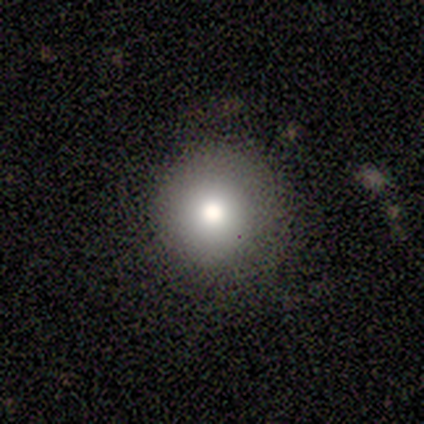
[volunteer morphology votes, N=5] Overall: smooth (80%). How rounded: round (100%). Merging: none (75%).